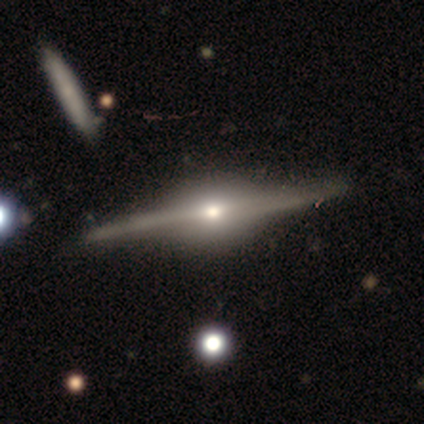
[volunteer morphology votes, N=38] Overall: featured or disk (95%). Edge-on disk: yes (100%). Edge-on bulge: rounded (81%). Merging: none (62%).